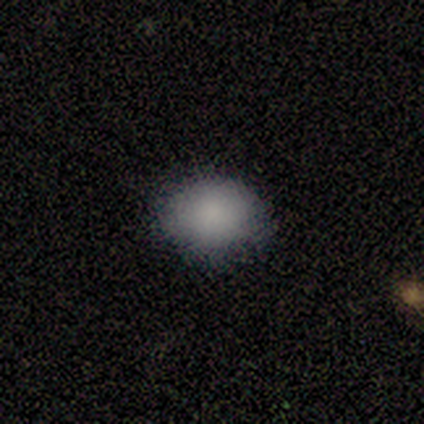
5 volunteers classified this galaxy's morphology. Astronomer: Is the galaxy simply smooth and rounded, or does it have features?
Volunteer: smooth — 100%.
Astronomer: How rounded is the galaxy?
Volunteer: in between — 80%.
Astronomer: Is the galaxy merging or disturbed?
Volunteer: none — 80%.